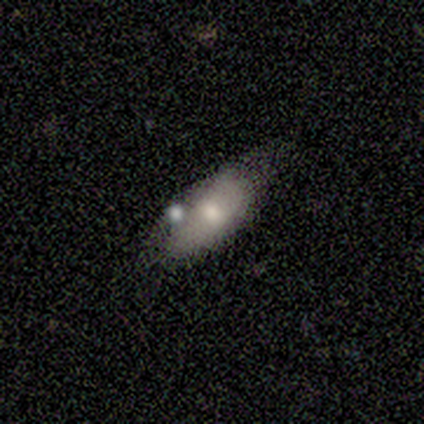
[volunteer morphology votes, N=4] This appears to be a smooth galaxy with no disk features (50%, tied with featured or disk) that is in between round and cigar-shaped (100%). Merging: none (75%).